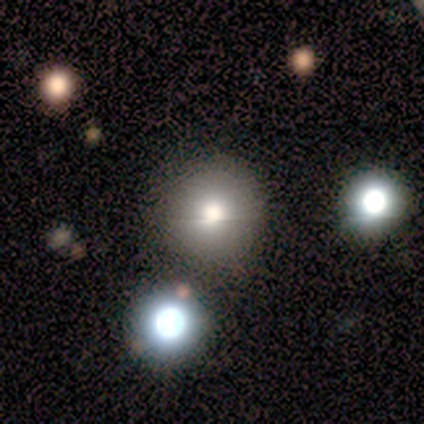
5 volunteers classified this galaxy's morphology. Q: Smooth or featured?
A: featured or disk (40%); tied with: star or artifact (40%)
Q: Edge-on disk?
A: no (100%)
Q: Bar?
A: weak (50%); tied with: no (50%)
Q: Spiral arms?
A: no (100%)
Q: Bulge size?
A: large (50%); tied with: moderate (50%)
Q: Merging?
A: none (67%); runner-up: minor disturbance (33%)